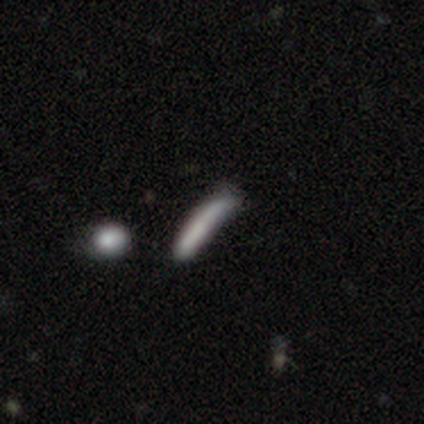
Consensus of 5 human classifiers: Smooth or featured? smooth (60%)
How rounded? cigar-shaped (100%)
Merging? none (50%)